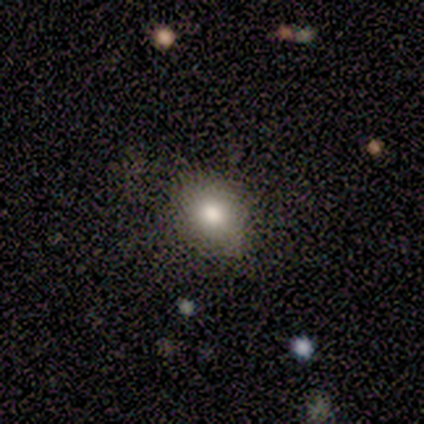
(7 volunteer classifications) Morphology: type=smooth (86%); roundness=in between (67%); merging=none (71%).